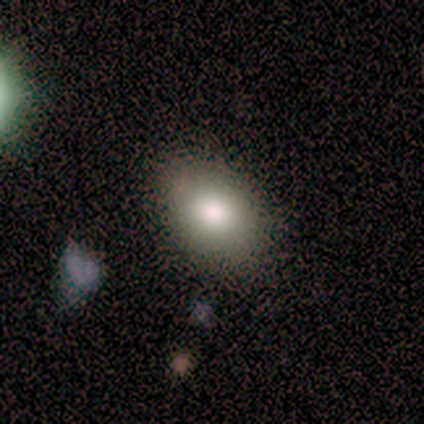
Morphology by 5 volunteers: Smooth or featured?
  - smooth: 100% *
  - featured or disk: 0%
  - star or artifact: 0%
How rounded?
  - in between: 100% *
  - round: 0%
  - cigar-shaped: 0%
Merging?
  - none: 100% *
  - minor disturbance: 0%
  - major disturbance: 0%
  - merger: 0%